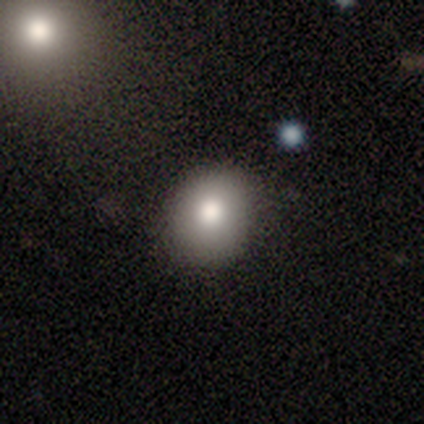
A smooth galaxy with no disk features (76%) that is round (83%).

Vote fractions:
- Smooth or featured? smooth: 76% / featured or disk: 16% / star or artifact: 8%
- How rounded? round: 83% / in between: 17% / cigar-shaped: 0%
- Merging? none: 89% / minor disturbance: 11% / major disturbance: 0% / merger: 0%